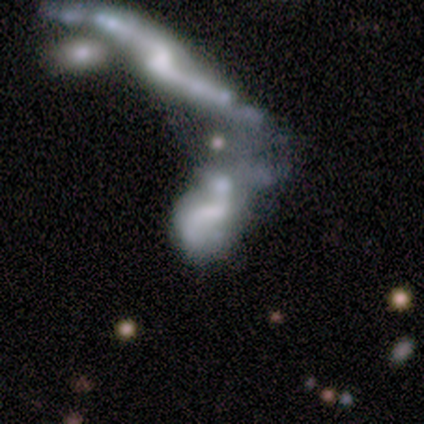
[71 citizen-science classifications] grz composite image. It shows a featured or disk galaxy (77%) with no bar (53%), 2 (73%) loose (73%) spiral arms (62%) and no central bulge (53%). Merging: merger (78%).